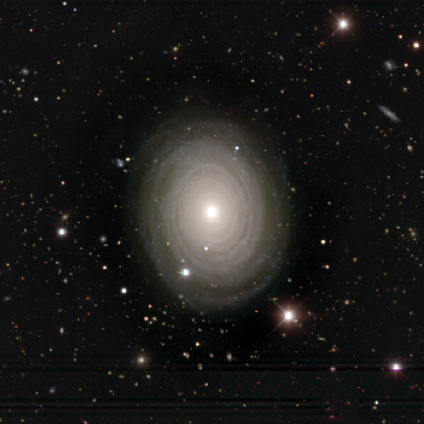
Smooth or featured?
  - featured or disk: 100% *
  - smooth: 0%
  - star or artifact: 0%
Edge-on disk?
  - no: 100% *
  - yes: 0%
Bar?
  - no: 100% *
  - strong: 0%
  - weak: 0%
Spiral arms?
  - yes: 100% *
  - no: 0%
Spiral winding?
  - tight: 100% *
  - medium: 0%
  - loose: 0%
Spiral arm count?
  - can't tell: 60% *
  - more than 4: 40%
  - 1: 0%
  - 2: 0%
  - 3: 0%
  - 4: 0%
Bulge size?
  - moderate: 60% *
  - large: 40%
  - dominant: 0%
  - small: 0%
  - none: 0%
Merging?
  - none: 100% *
  - minor disturbance: 0%
  - major disturbance: 0%
  - merger: 0%